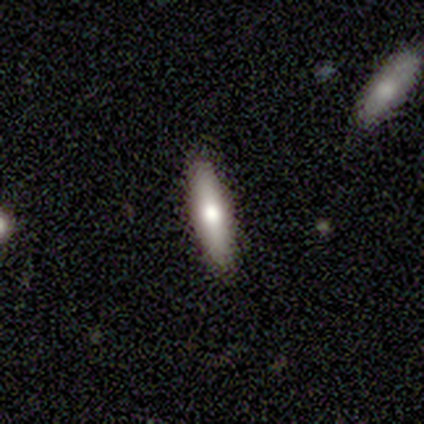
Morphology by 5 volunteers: smooth 100%, featured or disk 0%, star or artifact 0%. Down the decision tree: how rounded — cigar-shaped (100%); merging — minor disturbance (60%).